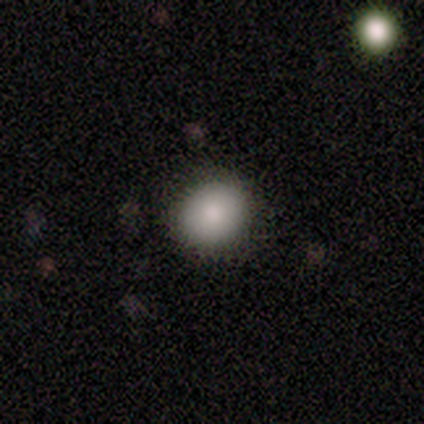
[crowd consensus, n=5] smooth_or_featured: smooth (p=1.00)
how_rounded: round (p=1.00)
merging: none (p=0.60) [alt: minor disturbance p=0.20]